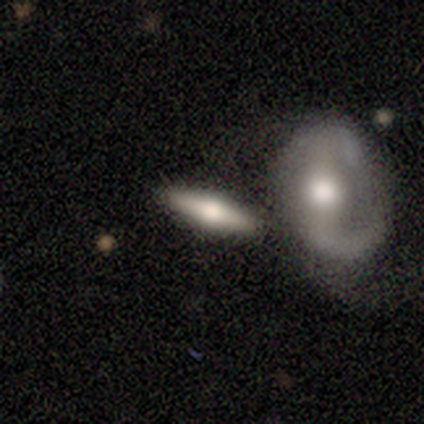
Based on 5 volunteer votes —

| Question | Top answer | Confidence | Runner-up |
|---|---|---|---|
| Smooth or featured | featured or disk | 60% | smooth (40%) |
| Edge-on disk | yes | 67% | no (33%) |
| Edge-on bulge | rounded | 100% | — |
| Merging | none | 60% | merger (40%) |